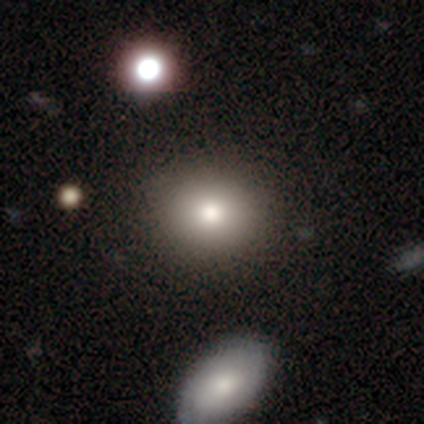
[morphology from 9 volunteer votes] This appears to be a smooth galaxy with no disk features (78%) that is round (71%). Merging: none (75%).